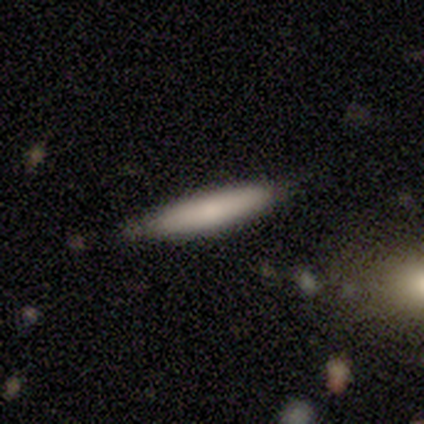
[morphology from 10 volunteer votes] Q: Smooth or featured?
A: smooth (70%); runner-up: featured or disk (20%)
Q: How rounded?
A: cigar-shaped (86%); runner-up: in between (14%)
Q: Merging?
A: none (56%); runner-up: minor disturbance (33%)